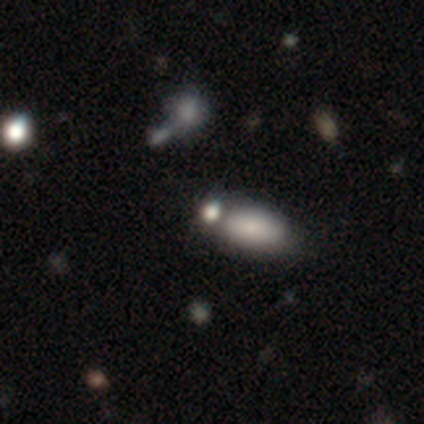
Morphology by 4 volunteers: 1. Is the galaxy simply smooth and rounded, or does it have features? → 50% smooth, 25% featured or disk, 25% star or artifact.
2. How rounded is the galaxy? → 50% round (tied), 50% in between (tied), 0% cigar-shaped.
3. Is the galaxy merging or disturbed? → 67% none, 33% merger, 0% minor disturbance, 0% major disturbance.